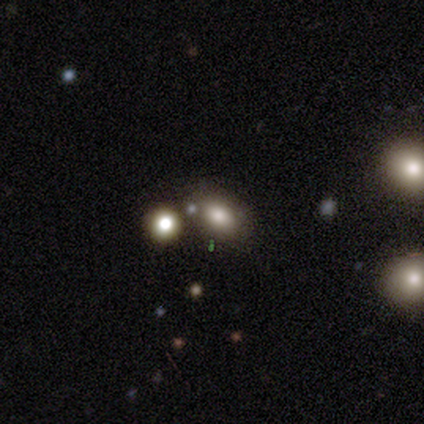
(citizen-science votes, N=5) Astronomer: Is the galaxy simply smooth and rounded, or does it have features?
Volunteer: smooth — 80%.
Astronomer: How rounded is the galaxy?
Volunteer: in between — 75%.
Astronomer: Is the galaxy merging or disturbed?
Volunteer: none — 40%, tied with merger at 40%.